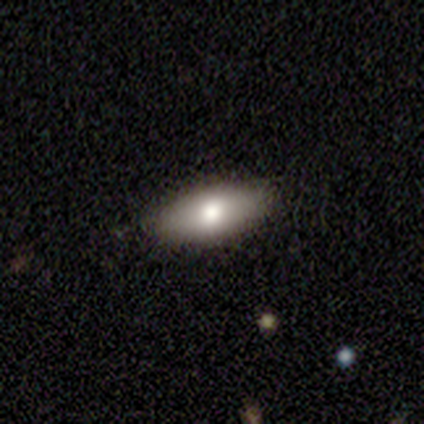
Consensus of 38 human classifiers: This is likely a smooth galaxy (74%). How rounded: clearly in between (93%). Merging: clearly none (85%).